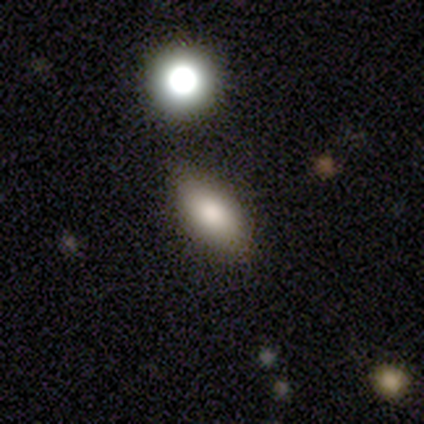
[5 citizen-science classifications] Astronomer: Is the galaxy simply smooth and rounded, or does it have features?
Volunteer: smooth — 100%.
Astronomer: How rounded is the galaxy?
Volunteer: in between — 80%.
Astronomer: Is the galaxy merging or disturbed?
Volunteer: none — 60% (runner-up: minor disturbance, 40%).